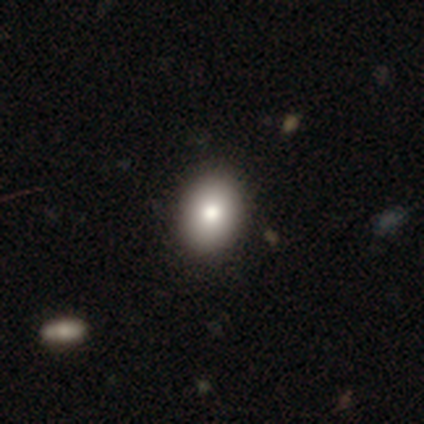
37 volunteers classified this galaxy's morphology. Volunteers were most divided on "how rounded": in between: 65%, round: 35%, cigar-shaped: 0%. More confident: merging — none (91%); smooth or featured — smooth (84%).